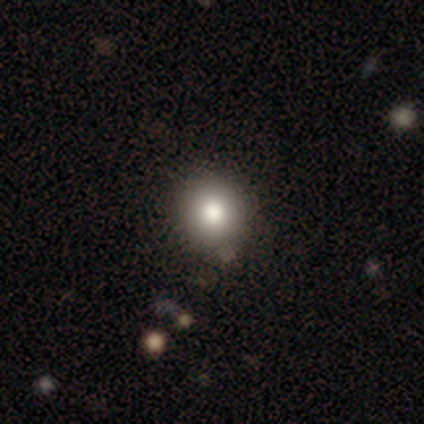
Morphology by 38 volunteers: Q: Smooth or featured?
A: smooth (66%); runner-up: featured or disk (18%)
Q: How rounded?
A: round (92%); runner-up: in between (8%)
Q: Merging?
A: none (78%); runner-up: merger (9%)